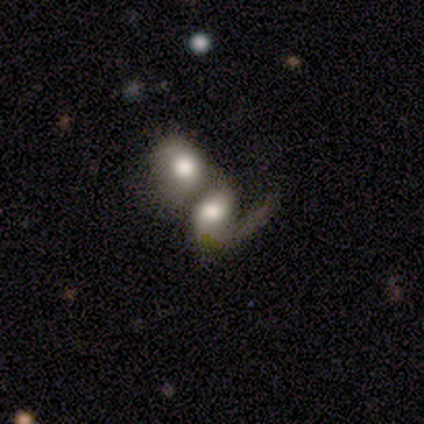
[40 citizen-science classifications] A featured or disk galaxy (68%) with no bar (77%), 1 (81%) loose (52%) spiral arms (81%) and a large central bulge (58%).

Vote fractions:
- Smooth or featured? featured or disk: 68% / smooth: 25% / star or artifact: 8%
- Edge-on disk? no: 96% / yes: 4%
- Bar? no: 77% / weak: 23% / strong: 0%
- Spiral arms? yes: 81% / no: 19%
- Spiral winding? loose: 52% / medium: 38% / tight: 10%
- Spiral arm count? 1: 81% / 2: 19% / 3: 0% / 4: 0% / more than 4: 0% / can't tell: 0%
- Bulge size? large: 58% / moderate: 23% / dominant: 8% / none: 8% / small: 4%
- Merging? merger: 86% / major disturbance: 11% / none: 3% / minor disturbance: 0%